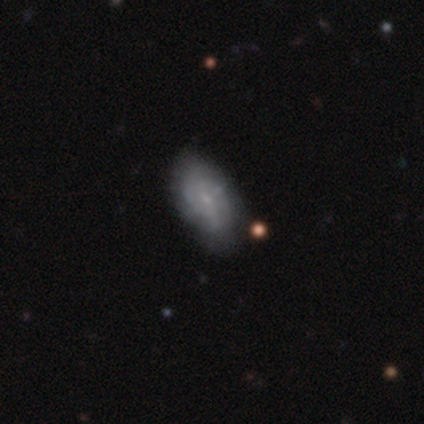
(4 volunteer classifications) A smooth galaxy with no disk features (50%, tied with featured or disk) that is in between round and cigar-shaped (100%). Merging: none (75%).